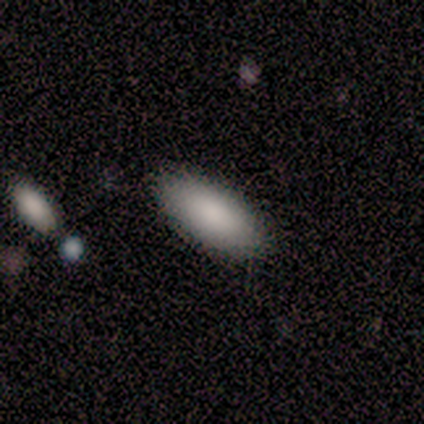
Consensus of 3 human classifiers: Overall: smooth (67%; star or artifact 33%). How rounded: in between (50%, tied with cigar-shaped). Merging: none (100%).